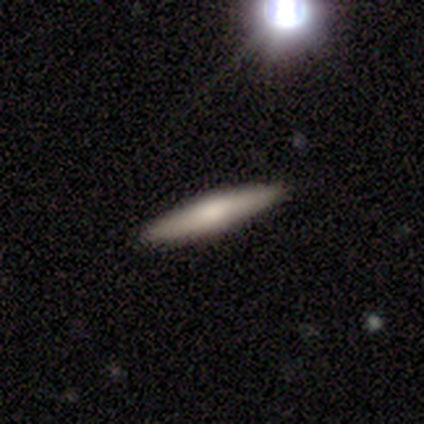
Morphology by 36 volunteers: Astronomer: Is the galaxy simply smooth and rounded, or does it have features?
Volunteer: smooth — 61%.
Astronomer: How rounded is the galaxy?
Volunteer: cigar-shaped — 100%.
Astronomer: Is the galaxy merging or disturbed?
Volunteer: none — 97%.